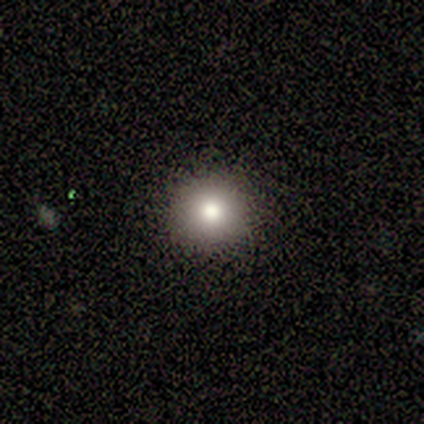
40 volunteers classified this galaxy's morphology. A smooth galaxy with no disk features (72%) that is round (100%).

Vote fractions:
- Smooth or featured? smooth: 72% / star or artifact: 15% / featured or disk: 12%
- How rounded? round: 100% / in between: 0% / cigar-shaped: 0%
- Merging? none: 97% / minor disturbance: 3% / major disturbance: 0% / merger: 0%